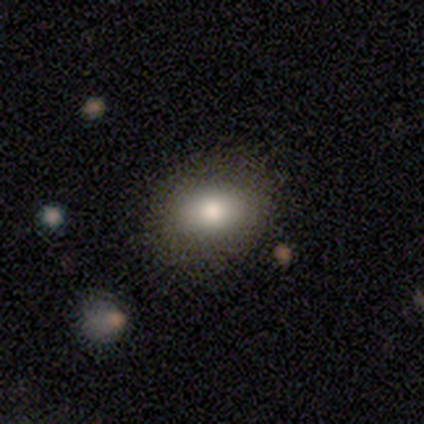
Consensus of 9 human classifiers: Smooth or featured? smooth (89%)
How rounded? round (50%, tied with in between)
Merging? none (89%)